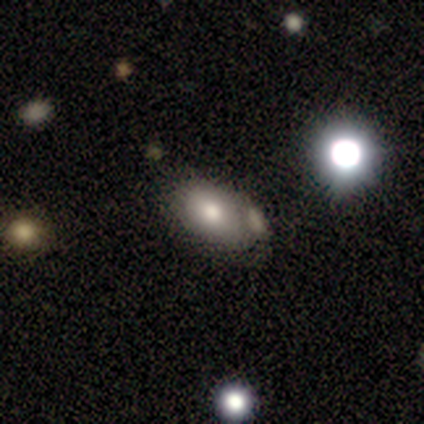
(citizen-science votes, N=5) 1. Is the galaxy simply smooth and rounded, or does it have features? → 60% smooth, 20% featured or disk, 20% star or artifact.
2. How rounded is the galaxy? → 67% round, 33% in between, 0% cigar-shaped.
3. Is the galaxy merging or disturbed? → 75% merger, 25% minor disturbance, 0% none, 0% major disturbance.